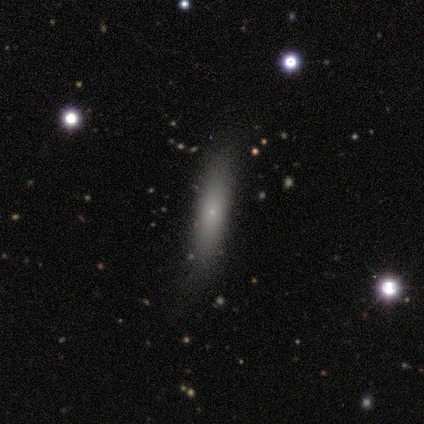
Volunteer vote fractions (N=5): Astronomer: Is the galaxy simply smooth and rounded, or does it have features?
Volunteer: smooth — 100%.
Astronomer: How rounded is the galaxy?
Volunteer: cigar-shaped — 80%.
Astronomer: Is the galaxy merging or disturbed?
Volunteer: none — 100%.